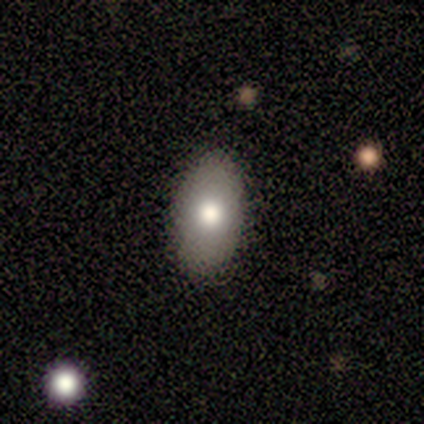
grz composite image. It shows a smooth galaxy with no disk features (100%) that is in between round and cigar-shaped (100%). Merging: none (80%).